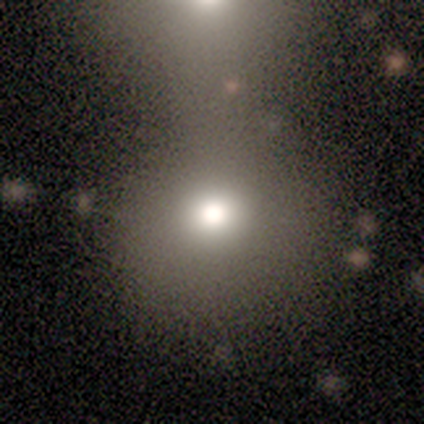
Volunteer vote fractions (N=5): Smooth or featured? 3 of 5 (60%) said smooth. How rounded? 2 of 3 (67%) said round. Merging? 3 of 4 (75%) said none.